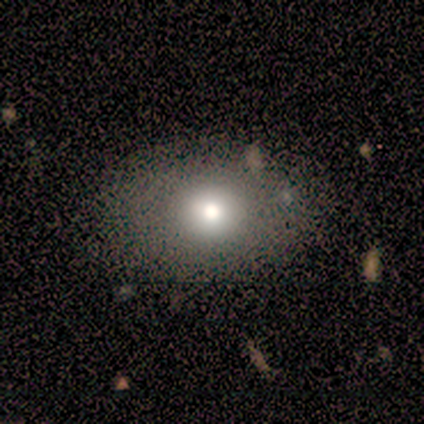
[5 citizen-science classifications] smooth_or_featured: smooth (p=0.80) [alt: featured or disk p=0.20]
how_rounded: in between (p=1.00)
merging: none (p=0.80) [alt: minor disturbance p=0.20]